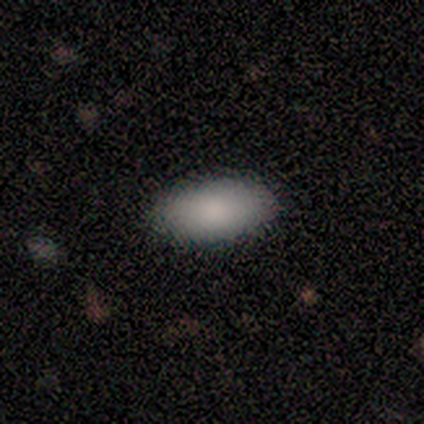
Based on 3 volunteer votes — This is clearly a smooth galaxy (100%). How rounded: clearly in between (100%). Merging: clearly none (100%).